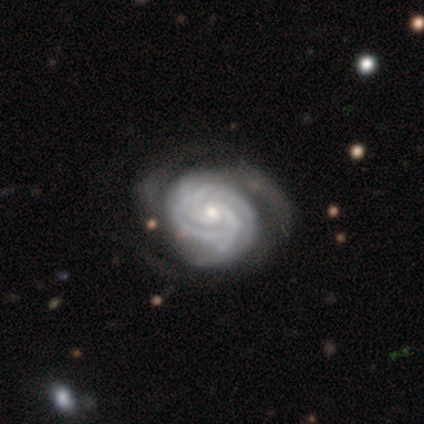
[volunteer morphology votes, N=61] Smooth or featured?
  - featured or disk: 90% *
  - star or artifact: 7%
  - smooth: 3%
Edge-on disk?
  - no: 100% *
  - yes: 0%
Bar?
  - no: 71% *
  - weak: 24%
  - strong: 5%
Spiral arms?
  - yes: 100% *
  - no: 0%
Spiral winding?
  - tight: 71% *
  - medium: 22%
  - loose: 7%
Spiral arm count?
  - 3: 42% *
  - 4: 20%
  - 2: 16%
  - can't tell: 15%
  - more than 4: 7%
  - 1: 0%
Bulge size?
  - small: 60% *
  - moderate: 33%
  - none: 4%
  - dominant: 2%
  - large: 2%
Merging?
  - none: 49% *
  - minor disturbance: 14%
  - major disturbance: 9%
  - merger: 4%